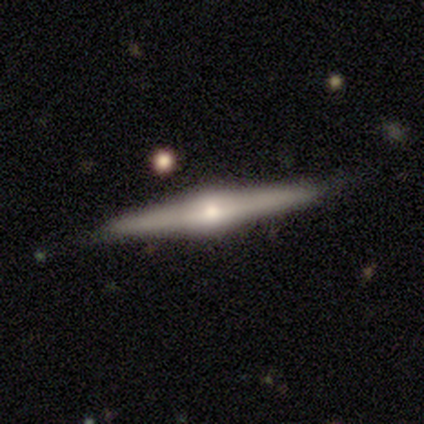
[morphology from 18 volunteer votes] Smooth or featured? featured or disk (78%)
Edge-on disk? yes (100%)
Edge-on bulge? rounded (93%)
Merging? none (88%)